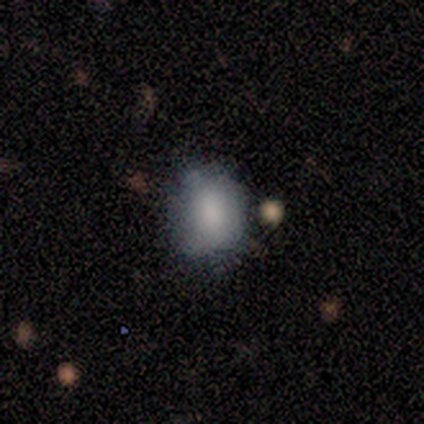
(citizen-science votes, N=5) smooth-or-featured: smooth: 100% | featured or disk: 0% | star or artifact: 0%
  how-rounded: round: 60% | in between: 40% | cigar-shaped: 0%
  merging: none: 80% | minor disturbance: 20% | major disturbance: 0% | merger: 0%